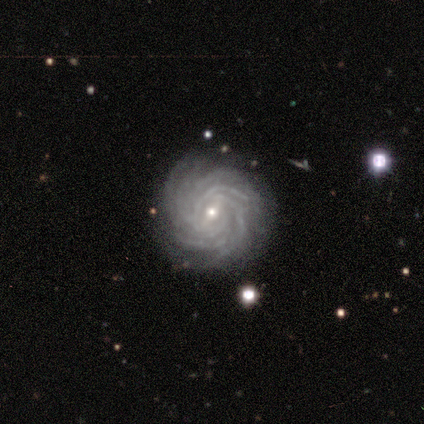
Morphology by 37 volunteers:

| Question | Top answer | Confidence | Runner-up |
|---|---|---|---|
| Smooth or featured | featured or disk | 86% | star or artifact (8%) |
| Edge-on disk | no | 97% | yes (3%) |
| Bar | weak | 39% | strong (32%) |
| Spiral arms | yes | 97% | no (3%) |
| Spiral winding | tight | 93% | medium (7%) |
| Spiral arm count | more than 4 | 80% | 4 (10%) |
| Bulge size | small | 74% | moderate (23%) |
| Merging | none | 85% | major disturbance (9%) |